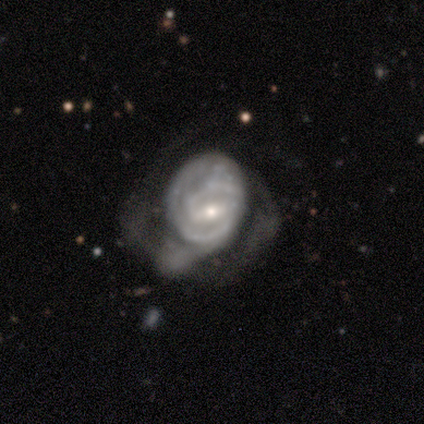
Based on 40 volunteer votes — Smooth or featured: featured or disk — 82% (smooth — 18%)
Edge-on disk: no — 97% (yes — 3%)
Bar: weak — 44% (strong — 31%)
Spiral arms: yes — 84% (no — 16%)
Spiral winding: tight — 70% (medium — 26%)
Spiral arm count: 2 — 63% (can't tell — 26%)
Bulge size: small — 69% (moderate — 31%)
Merging: major disturbance — 68% (none — 12%)